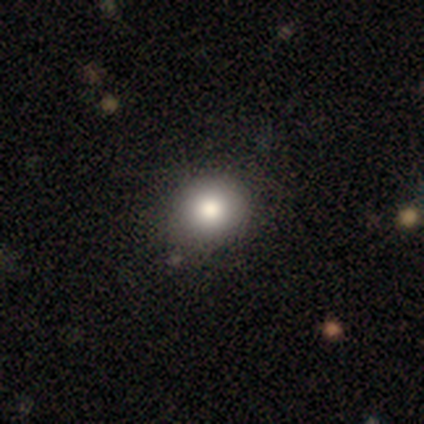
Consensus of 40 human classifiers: Smooth or featured? 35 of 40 (88%) said smooth. How rounded? 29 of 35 (83%) said round. Merging? 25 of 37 (68%) said none.